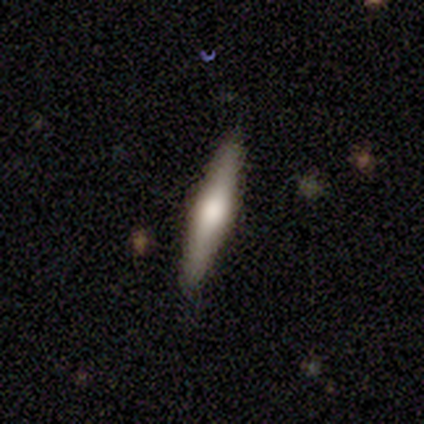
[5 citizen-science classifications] Q: Smooth or featured?
A: featured or disk (60%); runner-up: smooth (40%)
Q: Edge-on disk?
A: yes (100%)
Q: Edge-on bulge?
A: rounded (100%)
Q: Merging?
A: none (80%); runner-up: major disturbance (20%)